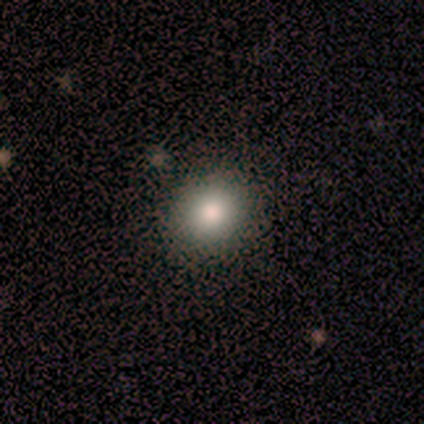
A smooth galaxy with no disk features (74%) that is round (77%). Merging: none (89%).